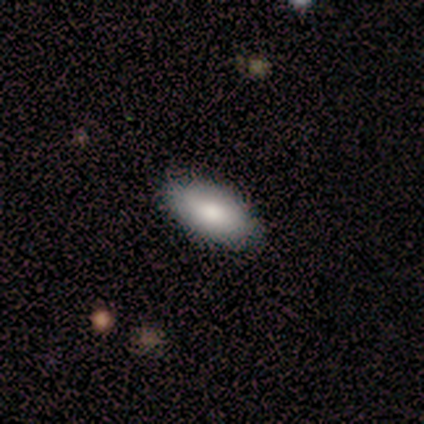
This is likely a smooth galaxy (60%). How rounded: clearly in between (100%). Merging: clearly none (100%).